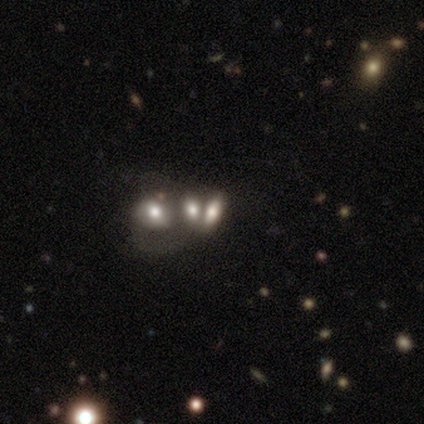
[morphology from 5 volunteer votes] type=smooth (80%); roundness=in between (100%); merging=minor disturbance (40%).